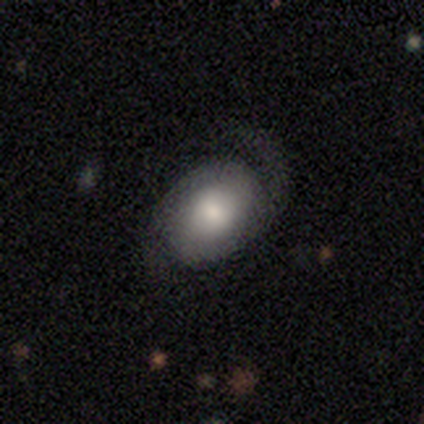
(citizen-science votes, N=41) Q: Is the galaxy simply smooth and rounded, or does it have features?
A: featured or disk — 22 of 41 (54%).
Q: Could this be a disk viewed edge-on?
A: no — 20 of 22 (91%).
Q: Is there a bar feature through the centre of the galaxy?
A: no — 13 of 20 (65%).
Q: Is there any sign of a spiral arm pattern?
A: yes — 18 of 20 (90%).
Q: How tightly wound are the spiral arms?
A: medium — 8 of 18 (44%).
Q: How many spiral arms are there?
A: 2 — 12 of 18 (67%).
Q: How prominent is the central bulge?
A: moderate — 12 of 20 (60%).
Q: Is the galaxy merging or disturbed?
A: none — 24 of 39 (62%).